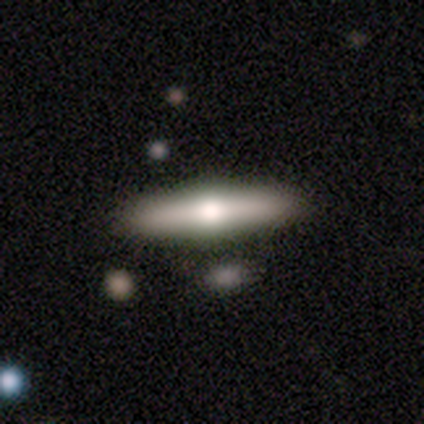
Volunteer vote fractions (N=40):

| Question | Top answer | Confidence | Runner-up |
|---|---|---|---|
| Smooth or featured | smooth | 48% | tied: featured or disk (48%) |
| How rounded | cigar-shaped | 84% | in between (11%) |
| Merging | none | 89% | minor disturbance (8%) |